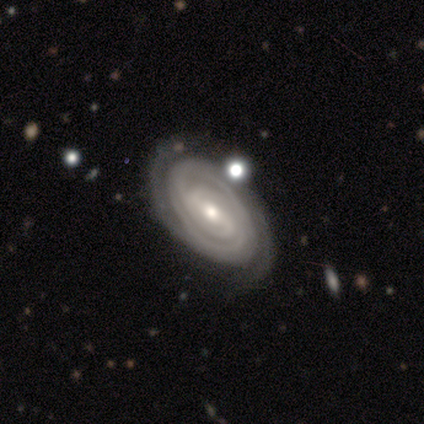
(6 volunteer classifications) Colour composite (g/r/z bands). It shows a featured or disk galaxy (83%) with a strong bar (60%), 2 (60%) tight (100%) spiral arms (100%) and a moderate central bulge (60%). Merging: none (83%).